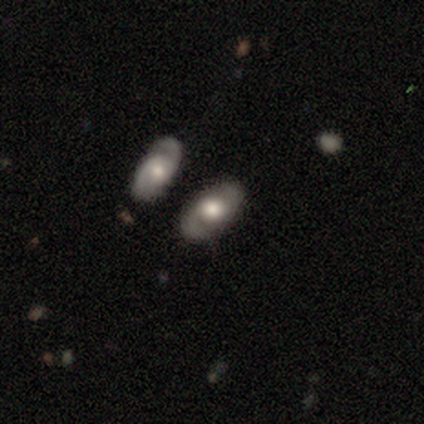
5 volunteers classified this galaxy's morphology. A featured or disk galaxy (60%) with no bar (100%), 2 (67%) tight (67%) spiral arms (100%) and a moderate central bulge (67%). Merging: none (80%).